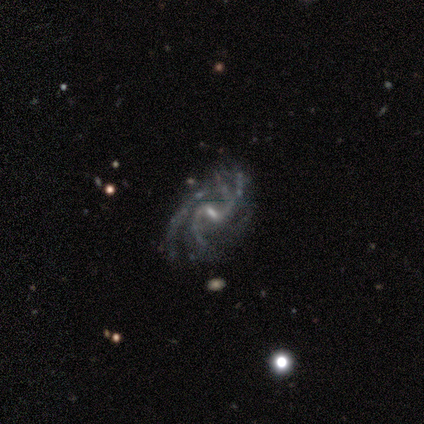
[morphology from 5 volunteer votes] This is clearly a featured or disk galaxy (80%). It is clearly not viewed edge-on (100%). Bar: possibly no (50%). Spiral arm pattern: clearly yes (100%). Spiral arm count: possibly 2 (50%). Spiral winding: possibly medium (50%). Central bulge: likely small (75%). Merging: possibly none (50%).